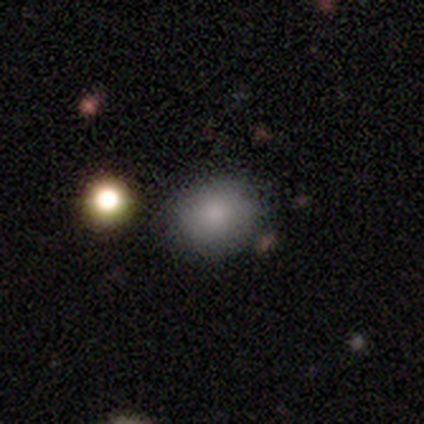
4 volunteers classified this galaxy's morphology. Smooth or featured?
  - smooth: 75% *
  - featured or disk: 25%
  - star or artifact: 0%
How rounded?
  - round: 67% *
  - in between: 33%
  - cigar-shaped: 0%
Merging?
  - none: 75% *
  - merger: 25%
  - minor disturbance: 0%
  - major disturbance: 0%